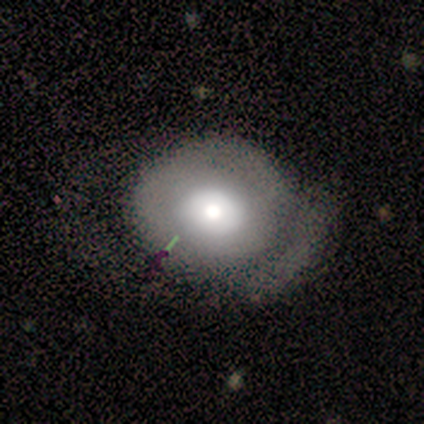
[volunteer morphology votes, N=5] Smooth or featured?
  - smooth: 40% * (tied)
  - featured or disk: 40% * (tied)
  - star or artifact: 20%
How rounded?
  - round: 50% * (tied)
  - in between: 50% * (tied)
  - cigar-shaped: 0%
Merging?
  - none: 50% *
  - minor disturbance: 25%
  - major disturbance: 25%
  - merger: 0%